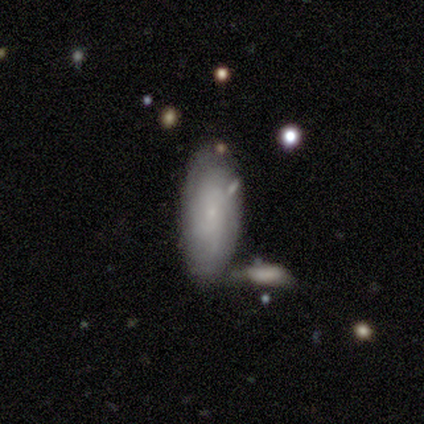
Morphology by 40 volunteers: featured or disk 50%, smooth 45%, star or artifact 5%. Down the decision tree: edge-on disk — no (100%); bar — no (75%); spiral arms — yes (85%); spiral arm count — can't tell (65%); spiral winding — tight (65%); bulge size — small (95%); merging — none (61%).